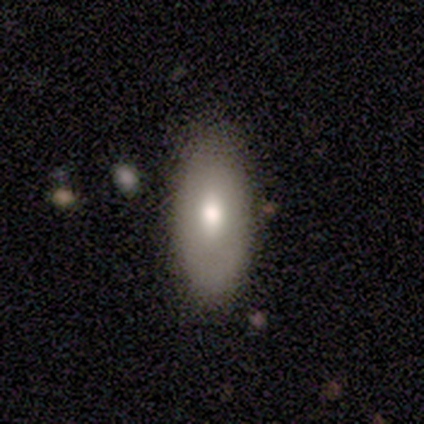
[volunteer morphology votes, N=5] Overall: smooth (60%; featured or disk 40%). How rounded: in between (100%). Merging: none (100%).